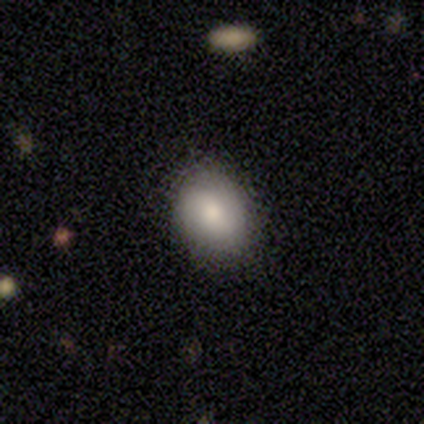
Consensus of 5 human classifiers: Morphology: type=smooth (100%); roundness=in between (60%); merging=none (60%).